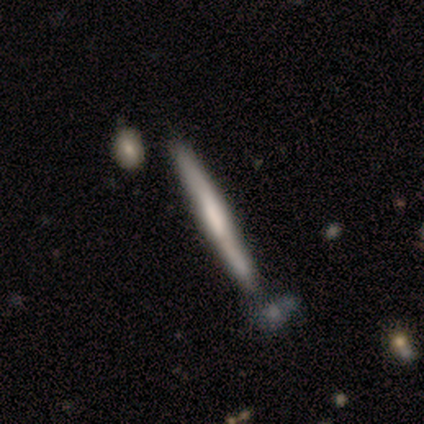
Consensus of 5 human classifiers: Q: Smooth or featured?
A: smooth (60%); runner-up: featured or disk (20%)
Q: How rounded?
A: cigar-shaped (100%)
Q: Merging?
A: none (50%); tied with: merger (50%)